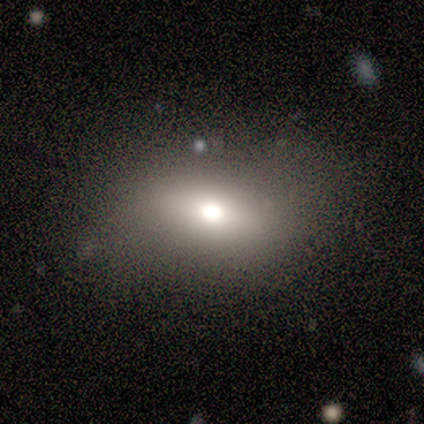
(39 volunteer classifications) smooth 67%, featured or disk 18%, star or artifact 15%. Down the decision tree: how rounded — in between (85%); merging — none (61%).